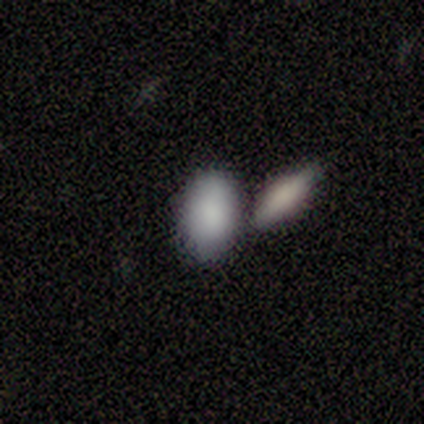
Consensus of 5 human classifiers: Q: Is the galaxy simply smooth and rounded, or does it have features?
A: smooth — 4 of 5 (80%).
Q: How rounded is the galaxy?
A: in between — 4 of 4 (100%).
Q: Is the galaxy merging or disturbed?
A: none — 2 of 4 (50%).